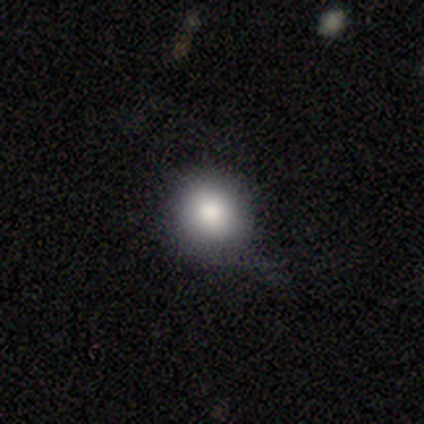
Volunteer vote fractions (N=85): A smooth galaxy with no disk features (78%) that is round (86%). Merging: none (55%).